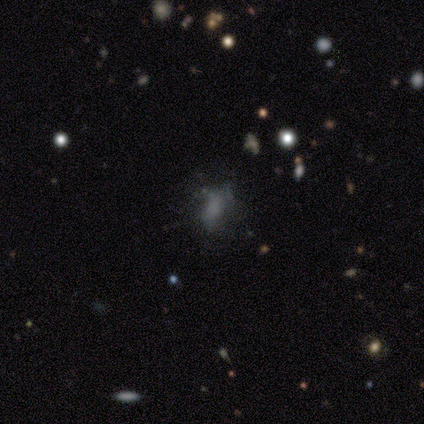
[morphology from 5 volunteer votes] Smooth or featured? featured or disk (40%, tied with star or artifact)
Edge-on disk? no (100%)
Bar? no (100%)
Spiral arms? no (100%)
Bulge size? none (100%)
Merging? none (67%)